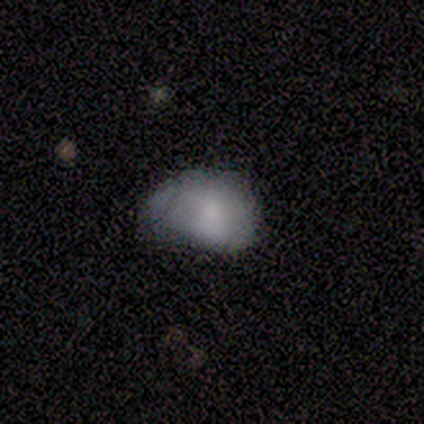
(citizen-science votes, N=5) Volunteers were most divided on "bulge size" (3-way tie): dominant: 33%, moderate: 33%, none: 33%, large: 0%, small: 0%. More confident: edge-on disk — no (100%); bar — no (100%); spiral arms — no (67%); smooth or featured — featured or disk (60%); merging — minor disturbance (60%).